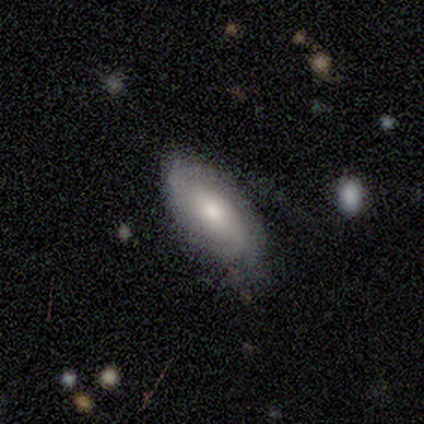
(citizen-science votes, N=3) smooth 67%, star or artifact 33%, featured or disk 0%. Down the decision tree: how rounded — in between (100%); merging — none (50%, tied with minor disturbance).